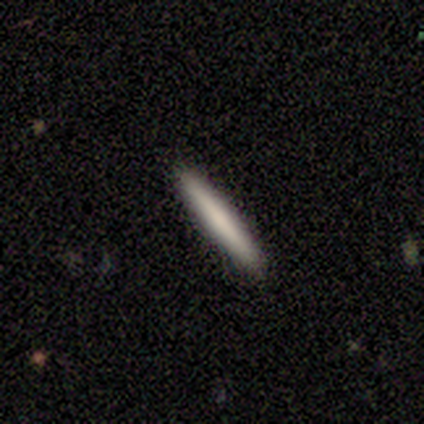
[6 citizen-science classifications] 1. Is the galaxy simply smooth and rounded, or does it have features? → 83% smooth, 17% featured or disk, 0% star or artifact.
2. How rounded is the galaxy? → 100% cigar-shaped, 0% round, 0% in between.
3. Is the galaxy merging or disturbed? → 83% none, 17% minor disturbance, 0% major disturbance, 0% merger.